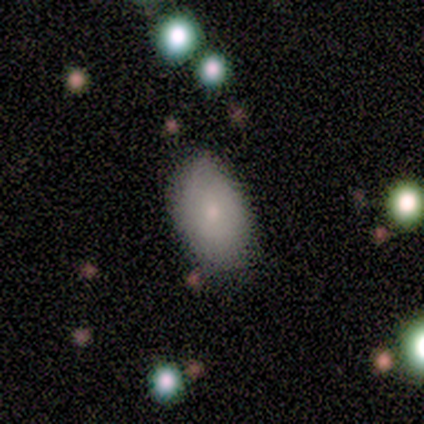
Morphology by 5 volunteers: This appears to be a smooth galaxy with no disk features (60%) that is in between round and cigar-shaped (100%). Merging: none (50%).